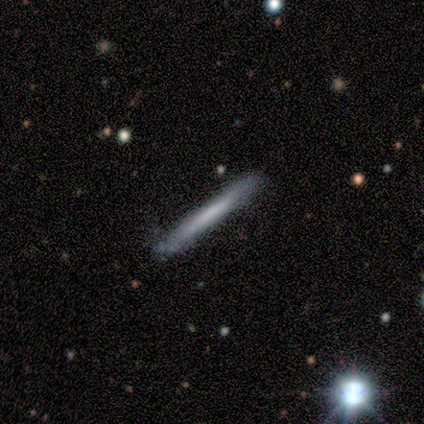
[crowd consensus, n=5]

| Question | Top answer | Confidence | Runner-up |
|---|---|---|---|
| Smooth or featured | featured or disk | 60% | smooth (40%) |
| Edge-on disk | yes | 100% | — |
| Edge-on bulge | none | 100% | — |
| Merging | none | 60% | minor disturbance (40%) |